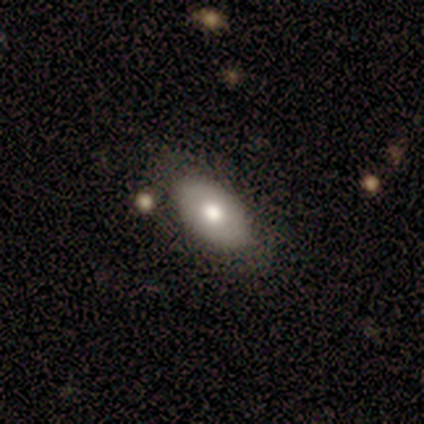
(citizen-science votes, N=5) Morphology: type=smooth (80%); roundness=in between (100%); merging=none (80%).